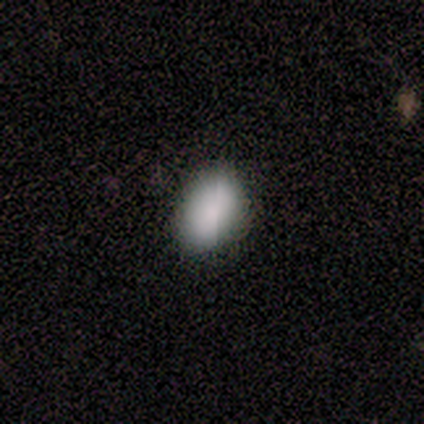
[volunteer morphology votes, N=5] smooth_or_featured: smooth (p=0.40) [tied with: star or artifact p=0.40]
how_rounded: in between (p=1.00)
merging: none (p=0.33) [tied with: minor disturbance p=0.33, major disturbance p=0.33]